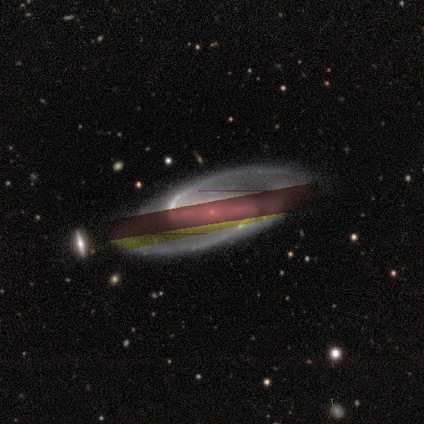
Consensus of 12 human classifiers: Morphology: type=featured or disk (83%); edge-on=no (80%); bar=strong (75%); spiral arms=yes (100%); winding=medium (38%, tied with loose); arm count=2 (100%); bulge=small (75%); merging=none (90%).